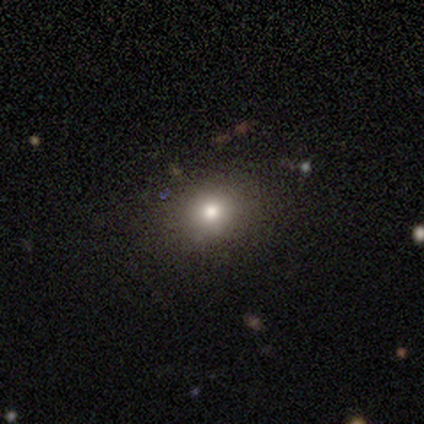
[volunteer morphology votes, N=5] A smooth galaxy with no disk features (80%) that is round (50%, tied with in between).

Vote fractions:
- Smooth or featured? smooth: 80% / star or artifact: 20% / featured or disk: 0%
- How rounded? round: 50% (tied) / in between: 50% (tied) / cigar-shaped: 0%
- Merging? none: 75% / minor disturbance: 25% / major disturbance: 0% / merger: 0%